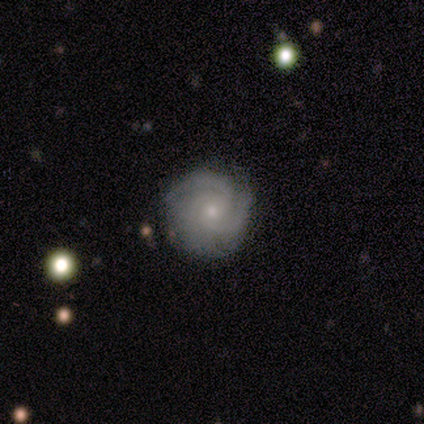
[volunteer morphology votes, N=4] smooth-or-featured: featured or disk: 100% | smooth: 0% | star or artifact: 0%
  disk-edge-on: no: 100% | yes: 0%
    bar: weak: 75% | no: 25% | strong: 0%
    has-spiral-arms: yes: 100% | no: 0%
      spiral-winding: tight: 75% | medium: 25% | loose: 0%
      spiral-arm-count: 3: 75% | 1: 25% | 2: 0% | 4: 0% | more than 4: 0% | can't tell: 0%
    bulge-size: moderate: 50% (tied) | small: 50% (tied) | dominant: 0% | large: 0% | none: 0%
  merging: none: 75% | major disturbance: 25% | minor disturbance: 0% | merger: 0%